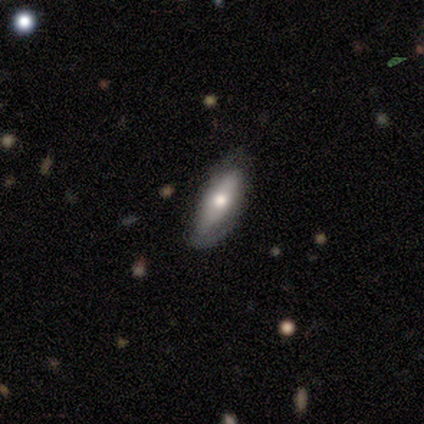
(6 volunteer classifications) Smooth or featured?
  - smooth: 50% *
  - featured or disk: 33%
  - star or artifact: 17%
How rounded?
  - cigar-shaped: 67% *
  - in between: 33%
  - round: 0%
Merging?
  - none: 100% *
  - minor disturbance: 0%
  - major disturbance: 0%
  - merger: 0%